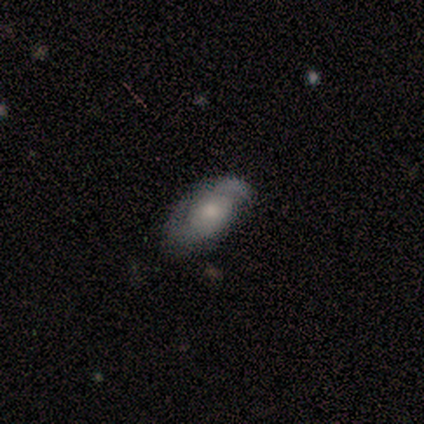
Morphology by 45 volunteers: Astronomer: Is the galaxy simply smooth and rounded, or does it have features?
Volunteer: featured or disk — 67%.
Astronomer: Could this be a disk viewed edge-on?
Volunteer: no — 93%.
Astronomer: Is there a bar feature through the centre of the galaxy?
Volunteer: no — 89%.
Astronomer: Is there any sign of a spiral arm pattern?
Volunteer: yes — 75%.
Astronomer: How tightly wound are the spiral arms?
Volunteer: tight — 57%.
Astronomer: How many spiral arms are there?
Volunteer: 2 — 57%.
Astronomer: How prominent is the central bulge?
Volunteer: moderate — 50% (runner-up: small, 29%).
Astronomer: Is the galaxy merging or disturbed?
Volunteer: none — 57%.